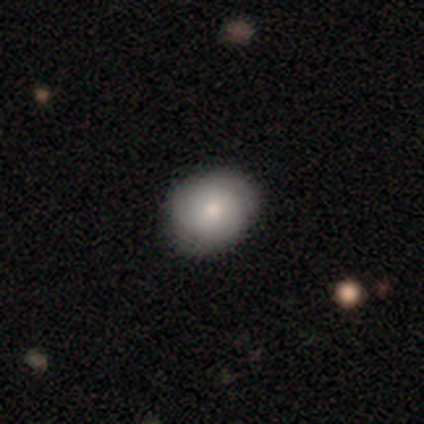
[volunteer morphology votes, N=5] This appears to be a smooth galaxy with no disk features (40%, tied with featured or disk) that is round (50%, tied with in between). Merging: none (50%, tied with minor disturbance).